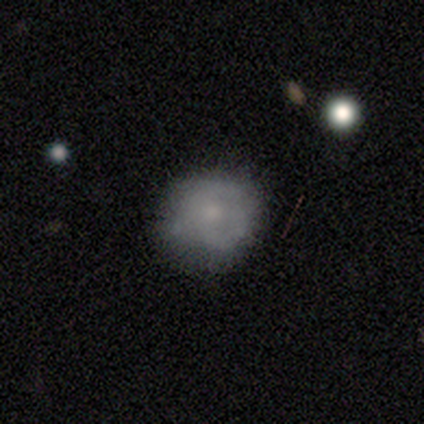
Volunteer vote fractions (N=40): This appears to be a smooth galaxy with no disk features (48%) that is round (95%). Merging: none (70%).